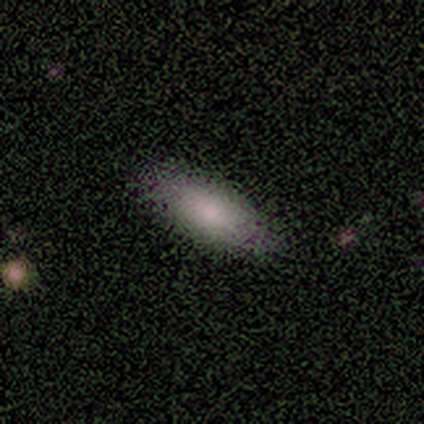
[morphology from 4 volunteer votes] smooth_or_featured: smooth (p=1.00)
how_rounded: in between (p=0.75) [alt: cigar-shaped p=0.25]
merging: none (p=1.00)